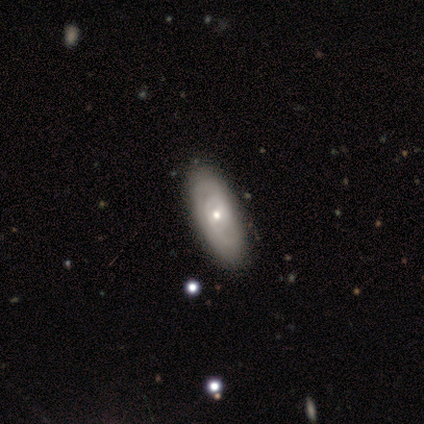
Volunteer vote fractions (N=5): Smooth or featured?
  - featured or disk: 60% *
  - smooth: 20%
  - star or artifact: 20%
Edge-on disk?
  - no: 67% *
  - yes: 33%
Bar?
  - no: 100% *
  - strong: 0%
  - weak: 0%
Spiral arms?
  - yes: 50% * (tied)
  - no: 50% * (tied)
Spiral winding?
  - medium: 100% *
  - tight: 0%
  - loose: 0%
Spiral arm count?
  - can't tell: 100% *
  - 1: 0%
  - 2: 0%
  - 3: 0%
  - 4: 0%
  - more than 4: 0%
Bulge size?
  - moderate: 100% *
  - dominant: 0%
  - large: 0%
  - small: 0%
  - none: 0%
Merging?
  - none: 75% *
  - minor disturbance: 25%
  - major disturbance: 0%
  - merger: 0%